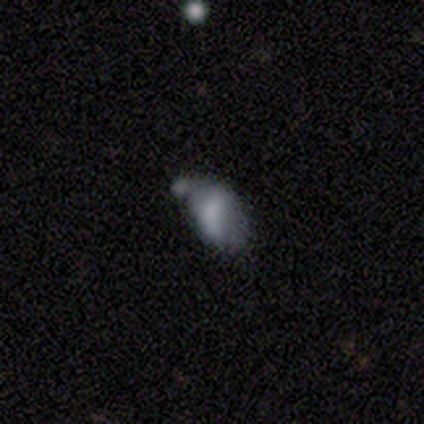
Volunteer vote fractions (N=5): smooth 60%, featured or disk 40%, star or artifact 0%. Down the decision tree: how rounded — in between (100%); merging — major disturbance (40%, tied with merger).